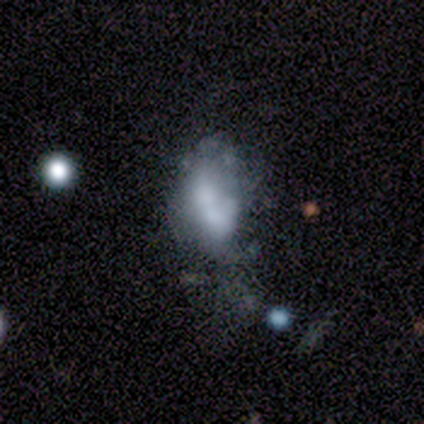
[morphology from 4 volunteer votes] Smooth or featured? featured or disk (75%)
Edge-on disk? no (100%)
Bar? no (100%)
Spiral arms? no (100%)
Bulge size? moderate (33%, tied with small and none)
Merging? major disturbance (50%, tied with merger)